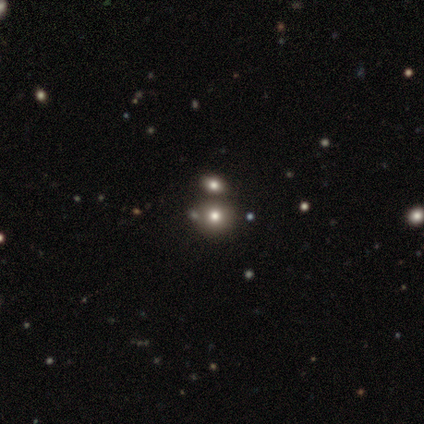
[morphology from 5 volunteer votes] Volunteers were most divided on "smooth or featured": smooth: 60%, star or artifact: 40%, featured or disk: 0%. More confident: merging — none (100%); how rounded — round (67%).